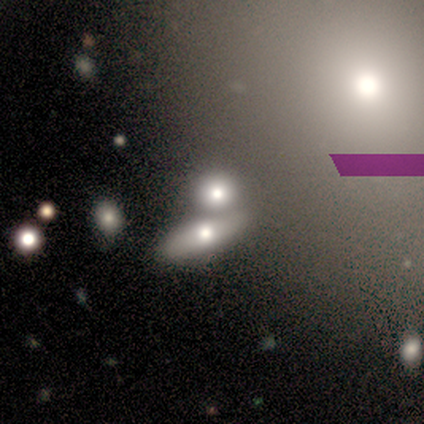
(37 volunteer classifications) Morphology: type=smooth (43%); roundness=round (50%); merging=merger (40%).